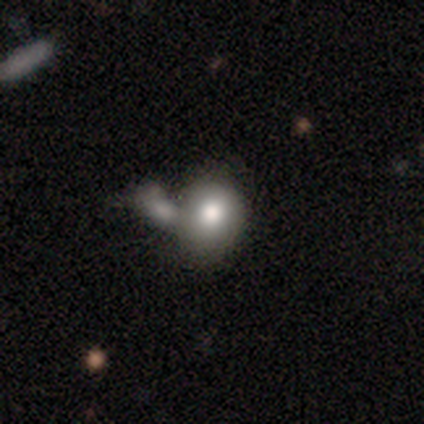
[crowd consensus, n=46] Q: Smooth or featured?
A: smooth (80%); runner-up: featured or disk (13%)
Q: How rounded?
A: round (59%); runner-up: in between (41%)
Q: Merging?
A: merger (53%); runner-up: none (33%)